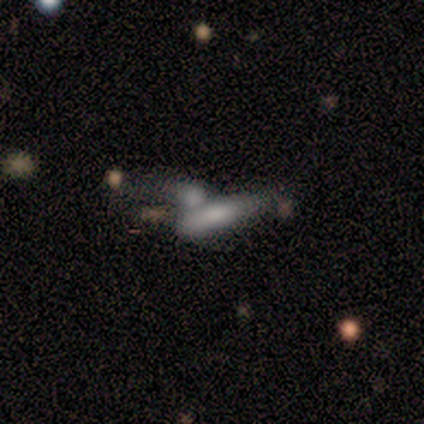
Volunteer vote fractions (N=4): A smooth galaxy with no disk features (75%) that is cigar-shaped (100%). Merging: merger (100%).